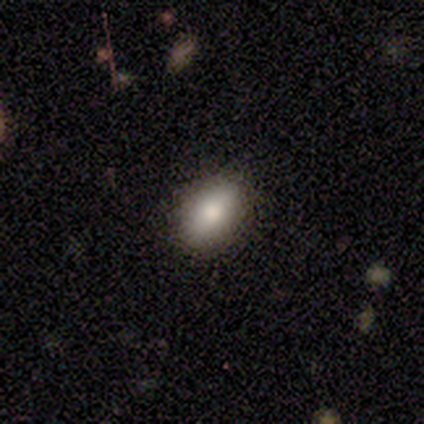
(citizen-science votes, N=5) A smooth galaxy with no disk features (60%) that is in between round and cigar-shaped (67%). Merging: none (80%).